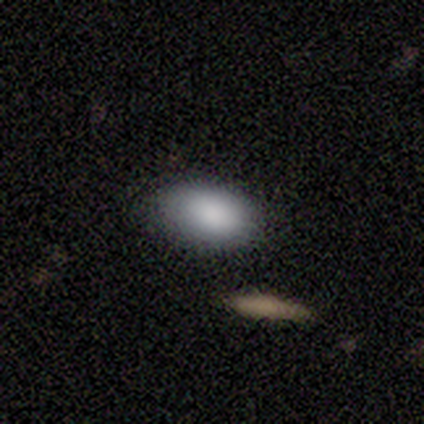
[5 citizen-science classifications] Smooth or featured: smooth — 60% (featured or disk — 20%)
How rounded: in between — 100%
Merging: none — 75% (merger — 25%)